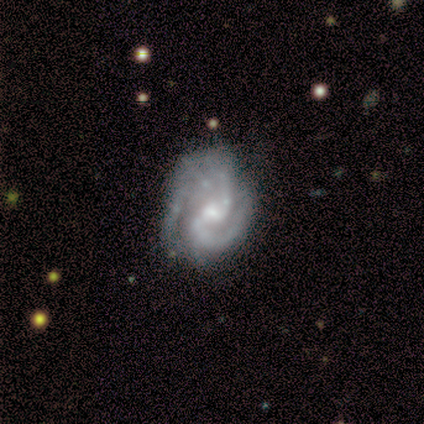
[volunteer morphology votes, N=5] This appears to be a featured or disk galaxy (80%) with a weak bar (75%), medium (75%) spiral arms (100%) and a small central bulge (75%). Merging: none (60%).